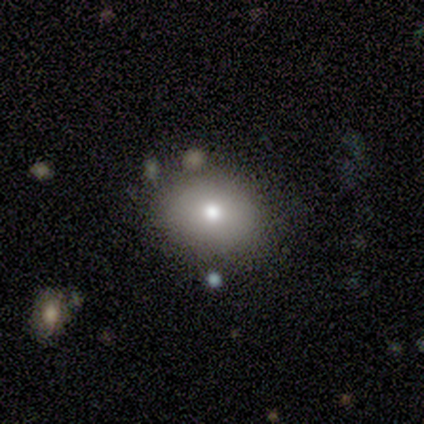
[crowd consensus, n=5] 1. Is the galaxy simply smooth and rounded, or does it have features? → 80% smooth, 20% featured or disk, 0% star or artifact.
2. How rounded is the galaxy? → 75% round, 25% in between, 0% cigar-shaped.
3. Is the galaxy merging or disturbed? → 60% none, 20% minor disturbance, 20% merger, 0% major disturbance.